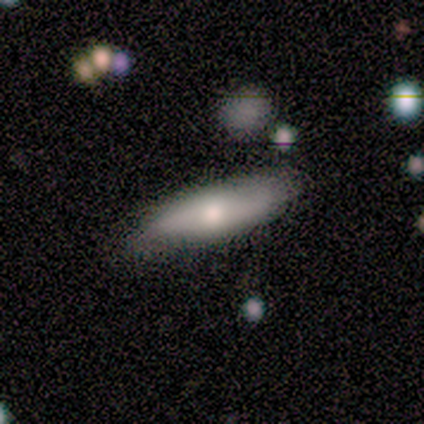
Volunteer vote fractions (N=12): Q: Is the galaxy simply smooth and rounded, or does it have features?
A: smooth — 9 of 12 (75%).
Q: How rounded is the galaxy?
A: in between — 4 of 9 (44%, tied with cigar-shaped).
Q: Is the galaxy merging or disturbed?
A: none — 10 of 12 (83%).